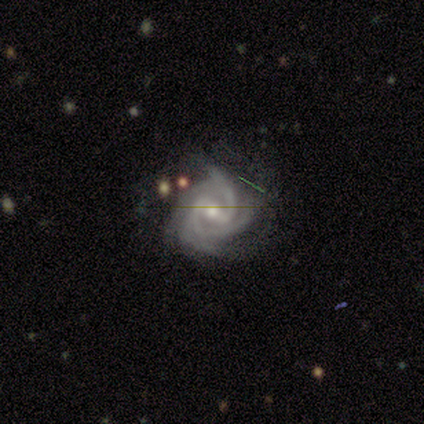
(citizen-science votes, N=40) Volunteers were most divided on "bar": strong: 46%, weak: 41%, no: 13%. More confident: edge-on disk — no (100%); spiral arms — yes (100%); smooth or featured — featured or disk (98%); spiral winding — tight (62%); bulge size — moderate (62%); merging — none (56%); spiral arm count — 4 (51%).